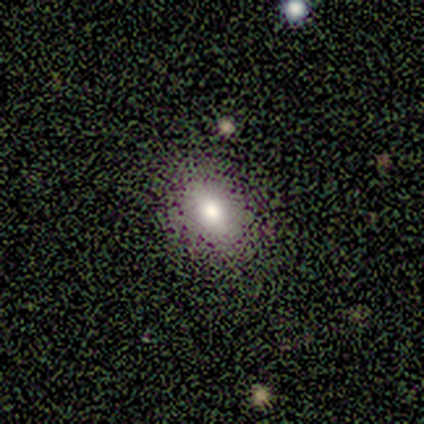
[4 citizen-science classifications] This appears to be a smooth galaxy with no disk features (100%) that is round (50%, tied with in between). Merging: none (100%).